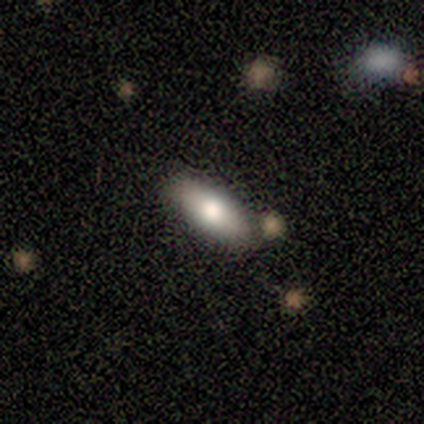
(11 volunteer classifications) smooth_or_featured: smooth (p=0.73) [alt: featured or disk p=0.27]
how_rounded: in between (p=0.50) [tied with: cigar-shaped p=0.50]
merging: none (p=1.00)